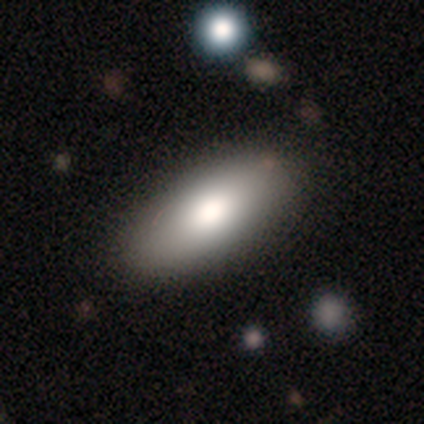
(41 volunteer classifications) A smooth galaxy with no disk features (78%) that is in between round and cigar-shaped (94%). Merging: none (90%).